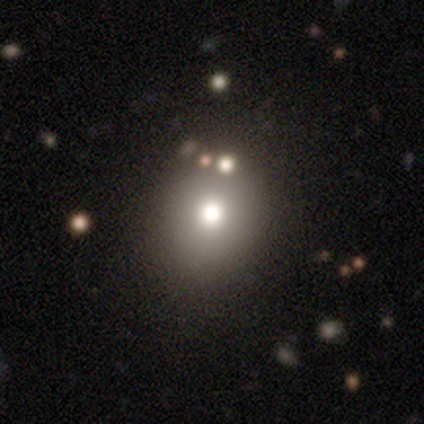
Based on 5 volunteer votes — smooth-or-featured: smooth: 80% | star or artifact: 20% | featured or disk: 0%
  how-rounded: round: 100% | in between: 0% | cigar-shaped: 0%
  merging: none: 75% | minor disturbance: 25% | major disturbance: 0% | merger: 0%